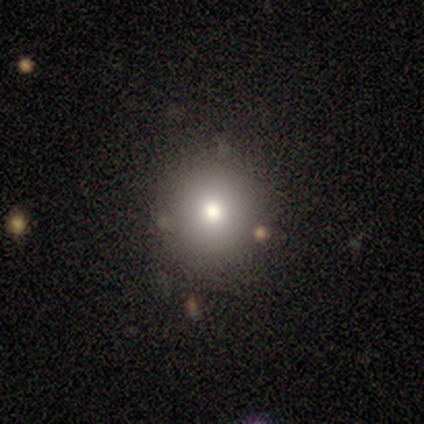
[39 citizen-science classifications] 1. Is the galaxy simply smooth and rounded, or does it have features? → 64% smooth, 18% featured or disk, 18% star or artifact.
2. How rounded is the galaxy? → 92% round, 8% in between, 0% cigar-shaped.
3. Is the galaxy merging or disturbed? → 81% none, 9% minor disturbance, 6% major disturbance, 3% merger.